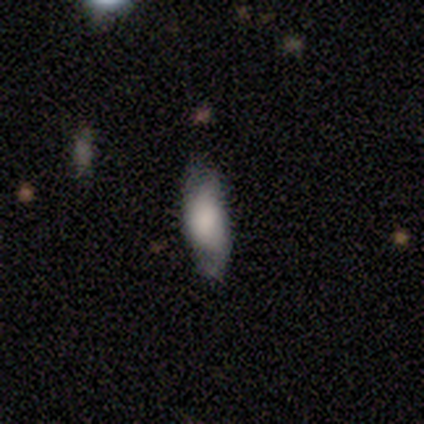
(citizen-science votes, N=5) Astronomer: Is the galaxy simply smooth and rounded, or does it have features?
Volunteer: featured or disk — 40%, tied with star or artifact at 40%.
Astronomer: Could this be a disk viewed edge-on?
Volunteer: yes — 50%, tied with no at 50%.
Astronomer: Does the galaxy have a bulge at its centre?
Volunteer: rounded — 100%.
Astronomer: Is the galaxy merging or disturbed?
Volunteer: minor disturbance — 67%.